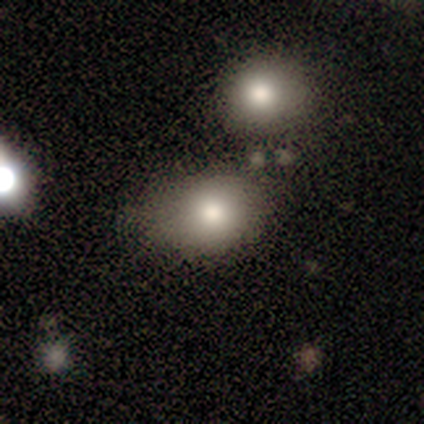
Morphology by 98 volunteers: This is clearly a smooth galaxy (81%). How rounded: likely in between (65%). Merging: possibly none (58%).